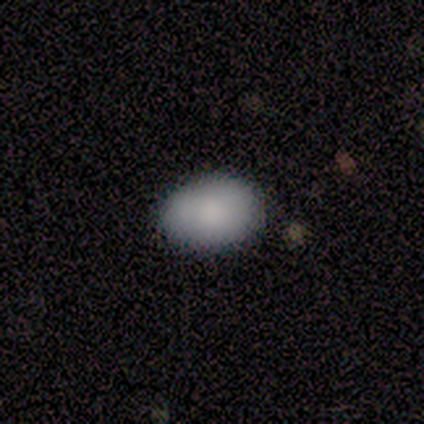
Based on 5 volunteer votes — Smooth or featured?
  - smooth: 80% *
  - featured or disk: 20%
  - star or artifact: 0%
How rounded?
  - in between: 100% *
  - round: 0%
  - cigar-shaped: 0%
Merging?
  - none: 60% *
  - minor disturbance: 40%
  - major disturbance: 0%
  - merger: 0%